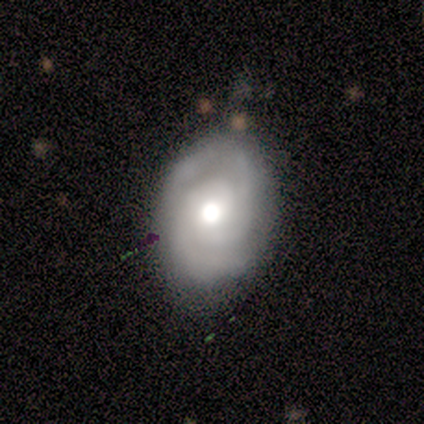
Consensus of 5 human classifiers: Q: Smooth or featured?
A: smooth (60%); runner-up: featured or disk (40%)
Q: How rounded?
A: in between (100%)
Q: Merging?
A: none (80%); runner-up: minor disturbance (20%)